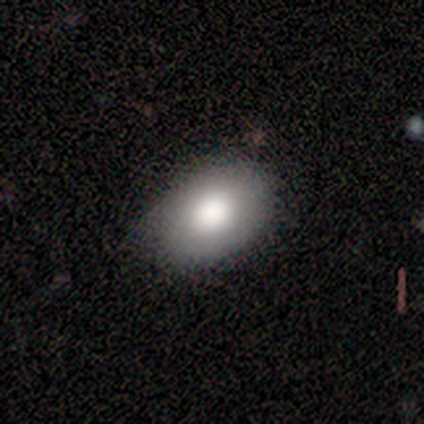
A smooth galaxy with no disk features (86%) that is in between round and cigar-shaped (83%). Merging: none (86%).